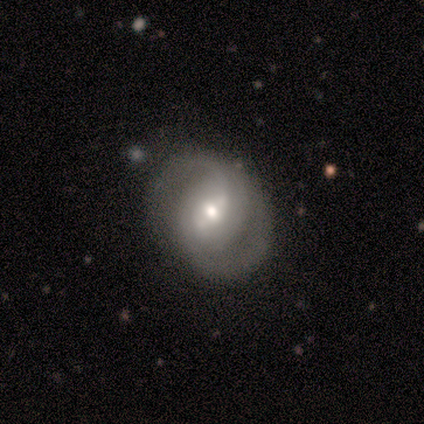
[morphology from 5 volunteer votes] A featured or disk galaxy (100%) with a weak bar (60%), 2 (80%) tight (40%, tied with medium) spiral arms (100%) and a moderate central bulge (60%).

Vote fractions:
- Smooth or featured? featured or disk: 100% / smooth: 0% / star or artifact: 0%
- Edge-on disk? no: 100% / yes: 0%
- Bar? weak: 60% / strong: 40% / no: 0%
- Spiral arms? yes: 100% / no: 0%
- Spiral winding? tight: 40% (tied) / medium: 40% (tied) / loose: 20%
- Spiral arm count? 2: 80% / can't tell: 20% / 1: 0% / 3: 0% / 4: 0% / more than 4: 0%
- Bulge size? moderate: 60% / large: 20% / small: 20% / dominant: 0% / none: 0%
- Merging? none: 100% / minor disturbance: 0% / major disturbance: 0% / merger: 0%